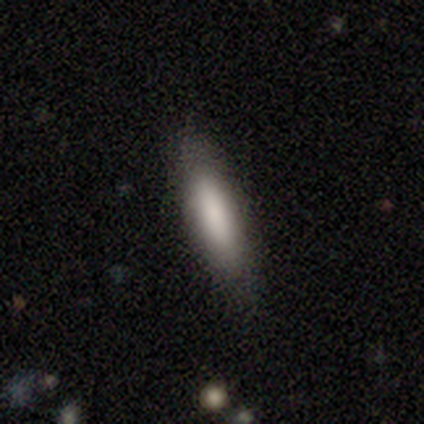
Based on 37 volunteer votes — smooth-or-featured: smooth: 81% | featured or disk: 19% | star or artifact: 0%
  how-rounded: cigar-shaped: 57% | in between: 40% | round: 3%
  merging: none: 78% | minor disturbance: 16% | major disturbance: 3% | merger: 3%